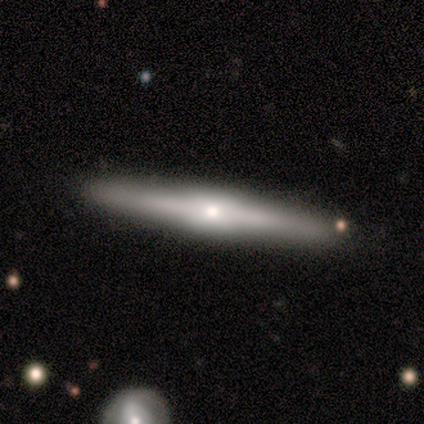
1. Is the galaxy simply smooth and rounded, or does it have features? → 60% featured or disk, 40% smooth, 0% star or artifact.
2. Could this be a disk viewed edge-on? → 100% yes, 0% no.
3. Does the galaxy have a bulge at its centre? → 67% rounded, 33% none, 0% boxy.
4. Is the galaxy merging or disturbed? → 80% none, 20% major disturbance, 0% minor disturbance, 0% merger.